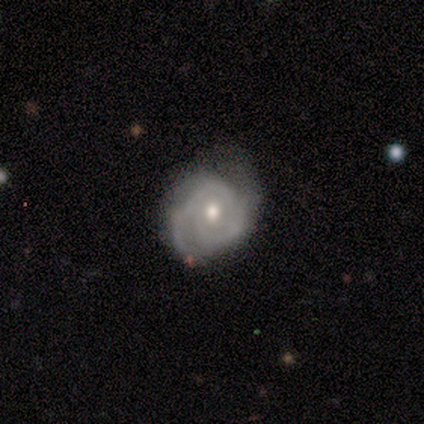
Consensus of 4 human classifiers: Morphology: type=featured or disk (100%); edge-on=no (100%); bar=no (100%); spiral arms=yes (100%); winding=tight (50%, tied with medium); arm count=2 (75%); bulge=moderate (50%, tied with small); merging=none (50%, tied with minor disturbance).